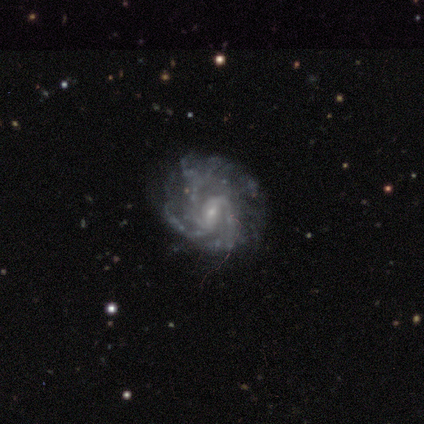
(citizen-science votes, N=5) smooth-or-featured: featured or disk: 80% | smooth: 20% | star or artifact: 0%
  disk-edge-on: no: 75% | yes: 25%
    bar: weak: 67% | no: 33% | strong: 0%
    has-spiral-arms: yes: 100% | no: 0%
      spiral-winding: medium: 67% | tight: 33% | loose: 0%
      spiral-arm-count: 3: 100% | 1: 0% | 2: 0% | 4: 0% | more than 4: 0% | can't tell: 0%
    bulge-size: small: 100% | dominant: 0% | large: 0% | moderate: 0% | none: 0%
  merging: none: 40% (tied) | major disturbance: 40% (tied) | minor disturbance: 20% | merger: 0%